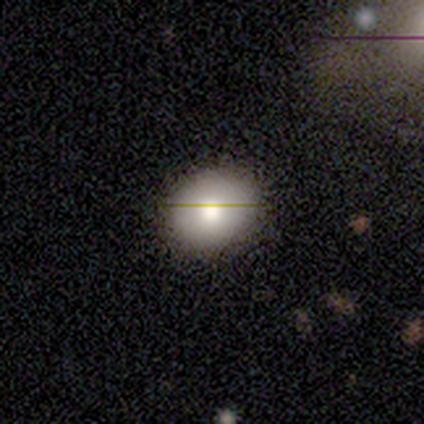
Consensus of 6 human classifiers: Q: Smooth or featured?
A: smooth (50%); runner-up: featured or disk (33%)
Q: How rounded?
A: round (67%); runner-up: in between (33%)
Q: Merging?
A: none (100%)